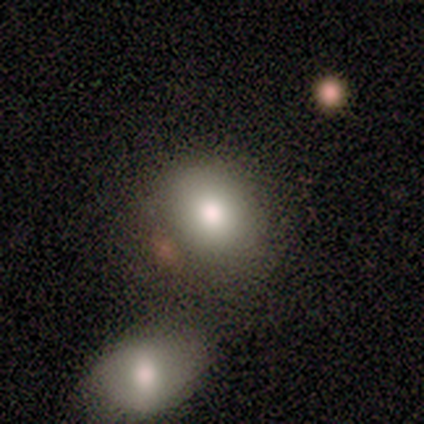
This is clearly a smooth galaxy (100%). How rounded: possibly round (50%, tied with in between). Merging: likely none (67%).